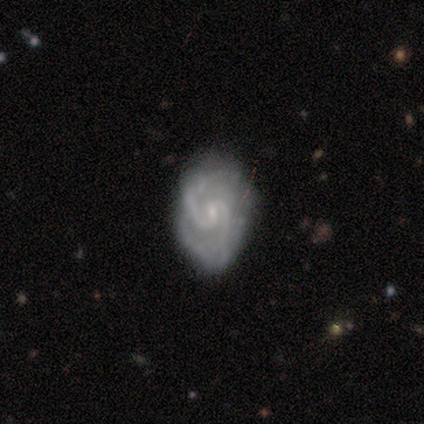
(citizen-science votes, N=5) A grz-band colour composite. It shows a featured or disk galaxy (100%) with no bar (60%), 2 (100%) tight (60%) spiral arms (100%) and a small central bulge (80%). Merging: none (60%).